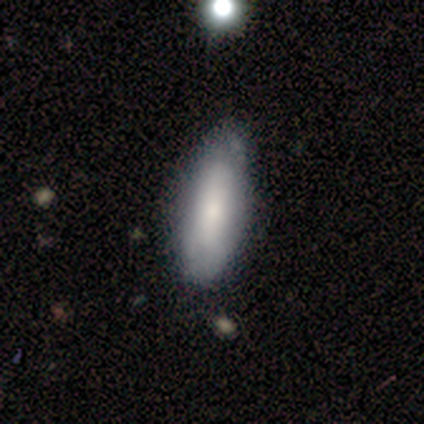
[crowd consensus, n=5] smooth-or-featured: featured or disk: 60% | smooth: 40% | star or artifact: 0%
  disk-edge-on: no: 100% | yes: 0%
    bar: no: 67% | strong: 33% | weak: 0%
    has-spiral-arms: no: 67% | yes: 33%
    bulge-size: small: 67% | none: 33% | dominant: 0% | large: 0% | moderate: 0%
  merging: none: 80% | major disturbance: 20% | minor disturbance: 0% | merger: 0%